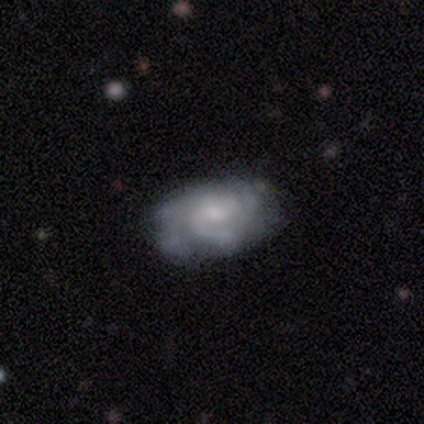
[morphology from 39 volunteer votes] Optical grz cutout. It shows a featured or disk galaxy (92%) with no bar (57%), 3 (32%, tied with can't tell) tight (52%) spiral arms (89%) and a small central bulge (51%). Merging: none (56%).